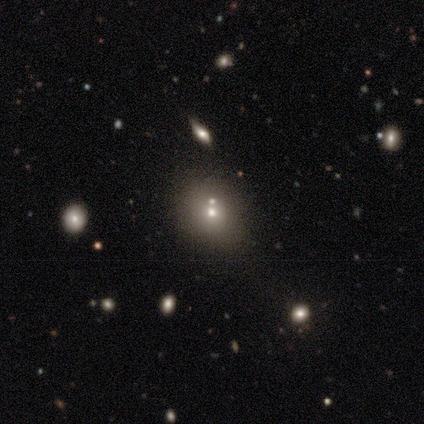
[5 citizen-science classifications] Smooth or featured: smooth — 40% (tied with star or artifact — 40%)
How rounded: round — 100%
Merging: none — 67% (minor disturbance — 33%)